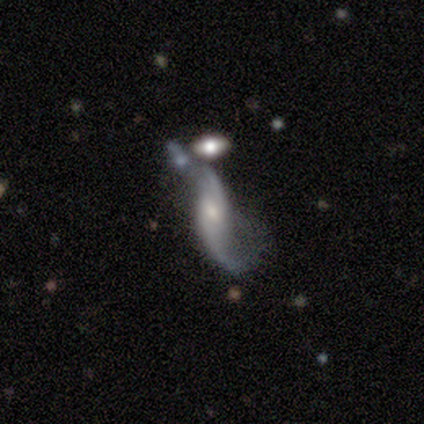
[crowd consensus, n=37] featured or disk 86%, smooth 8%, star or artifact 5%. Down the decision tree: edge-on disk — no (91%); bar — no (52%); spiral arms — yes (97%); spiral arm count — 2 (93%); spiral winding — loose (100%); bulge size — moderate (52%); merging — merger (40%).